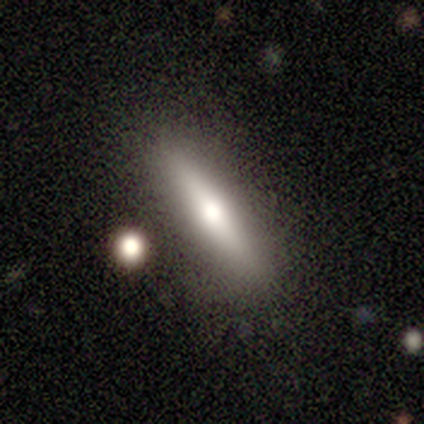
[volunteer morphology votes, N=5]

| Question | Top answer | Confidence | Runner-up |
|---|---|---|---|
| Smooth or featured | featured or disk | 60% | smooth (40%) |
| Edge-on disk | yes | 100% | — |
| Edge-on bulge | rounded | 67% | boxy (33%) |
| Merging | none | 80% | minor disturbance (20%) |